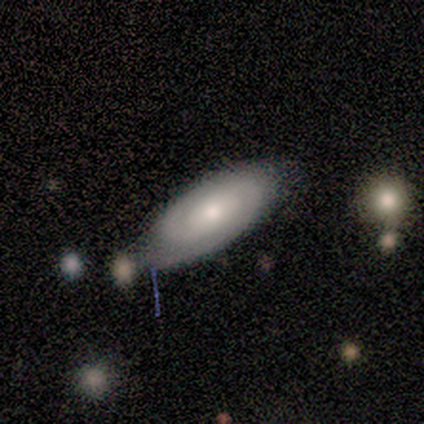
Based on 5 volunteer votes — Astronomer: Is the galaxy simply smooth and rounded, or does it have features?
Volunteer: featured or disk — 80%.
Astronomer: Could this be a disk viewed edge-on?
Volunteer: no — 75%.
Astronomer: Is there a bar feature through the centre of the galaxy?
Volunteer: strong — 33%, tied with weak and no at 33%.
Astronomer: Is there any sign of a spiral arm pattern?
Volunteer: yes — 100%.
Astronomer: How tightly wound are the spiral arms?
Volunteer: tight — 67%.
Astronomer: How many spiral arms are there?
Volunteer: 2 — 67%.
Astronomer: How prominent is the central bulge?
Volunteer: moderate — 33%, tied with small and none at 33%.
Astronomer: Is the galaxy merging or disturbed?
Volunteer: none — 80%.